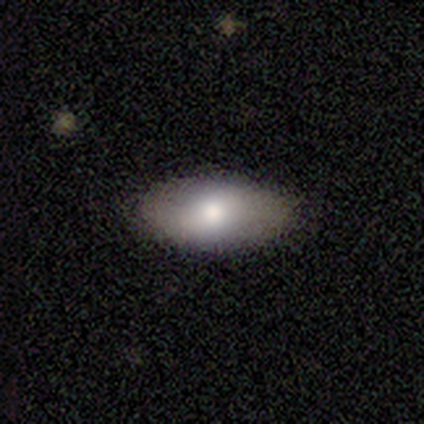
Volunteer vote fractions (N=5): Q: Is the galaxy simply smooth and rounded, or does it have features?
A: featured or disk — 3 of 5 (60%).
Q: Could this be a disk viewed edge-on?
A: no — 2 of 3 (67%).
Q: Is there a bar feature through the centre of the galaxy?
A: no — 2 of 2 (100%).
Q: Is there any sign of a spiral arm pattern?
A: yes — 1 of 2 (50%, tied with no).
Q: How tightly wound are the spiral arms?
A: loose — 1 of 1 (100%).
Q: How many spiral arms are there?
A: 2 — 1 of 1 (100%).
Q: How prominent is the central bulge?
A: moderate — 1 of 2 (50%, tied with small).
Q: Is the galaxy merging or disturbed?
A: none — 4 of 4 (100%).